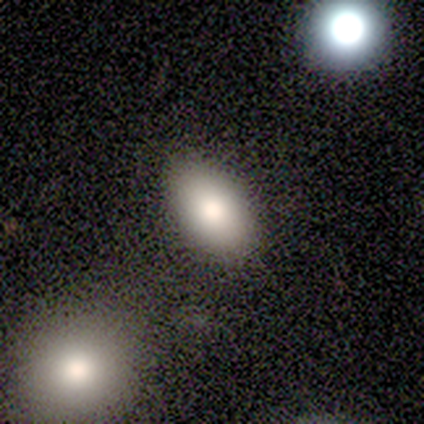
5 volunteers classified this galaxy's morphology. This is likely a smooth galaxy (60%). How rounded: clearly in between (100%). Merging: clearly none (100%).